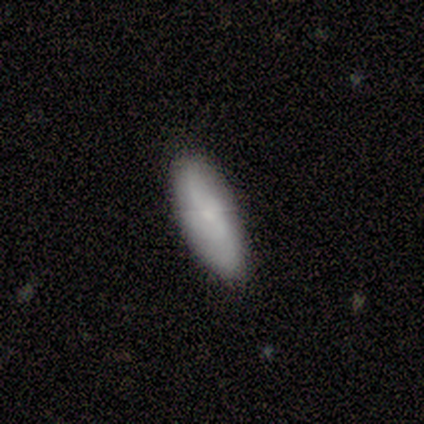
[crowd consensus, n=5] smooth_or_featured: smooth (p=0.80) [alt: featured or disk p=0.20]
how_rounded: in between (p=0.75) [alt: cigar-shaped p=0.25]
merging: none (p=0.80) [alt: minor disturbance p=0.20]